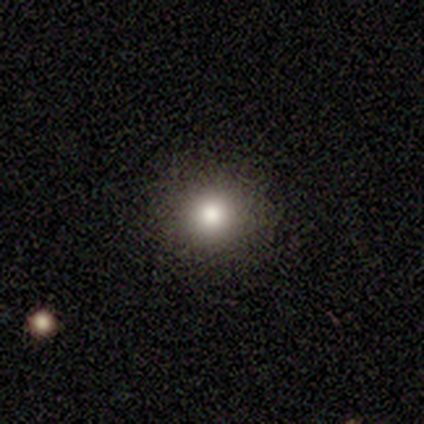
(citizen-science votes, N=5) smooth-or-featured: smooth: 60% | featured or disk: 20% | star or artifact: 20%
  how-rounded: round: 100% | in between: 0% | cigar-shaped: 0%
  merging: none: 100% | minor disturbance: 0% | major disturbance: 0% | merger: 0%